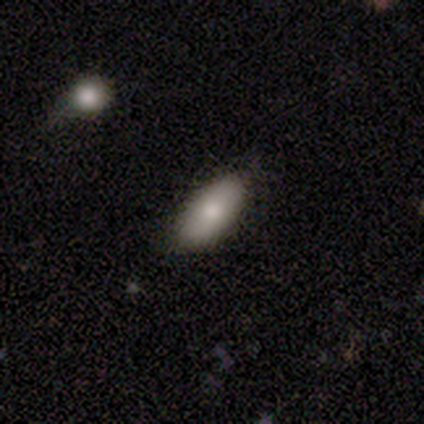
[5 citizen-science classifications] smooth 80%, featured or disk 20%, star or artifact 0%. Down the decision tree: how rounded — in between (100%); merging — none (100%).